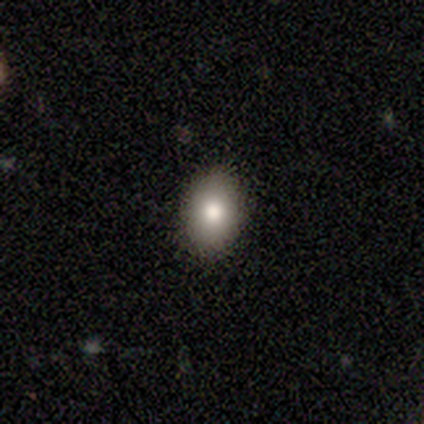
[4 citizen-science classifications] A smooth galaxy with no disk features (75%) that is in between round and cigar-shaped (100%).

Vote fractions:
- Smooth or featured? smooth: 75% / star or artifact: 25% / featured or disk: 0%
- How rounded? in between: 100% / round: 0% / cigar-shaped: 0%
- Merging? none: 67% / minor disturbance: 33% / major disturbance: 0% / merger: 0%